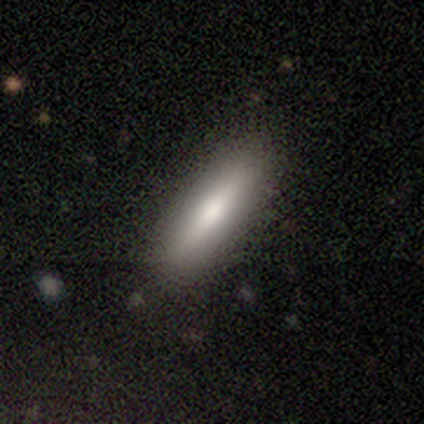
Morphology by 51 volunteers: This appears to be a smooth galaxy with no disk features (63%) that is cigar-shaped (62%). Merging: none (86%).